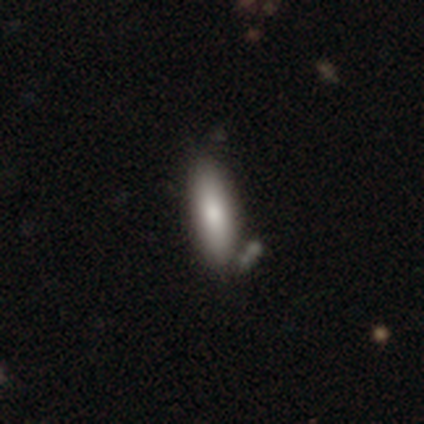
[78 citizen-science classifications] This appears to be a smooth galaxy with no disk features (82%) that is in between round and cigar-shaped (62%). Merging: none (38%).